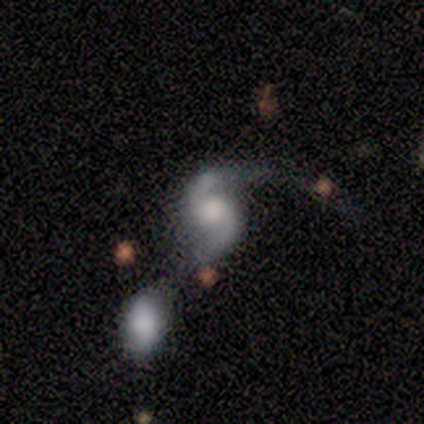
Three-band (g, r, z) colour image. It shows a featured or disk galaxy (100%) with no bar (80%), 2 (100%) medium (80%) spiral arms (100%) and a moderate central bulge (40%, tied with small). Merging: minor disturbance (40%, tied with merger).